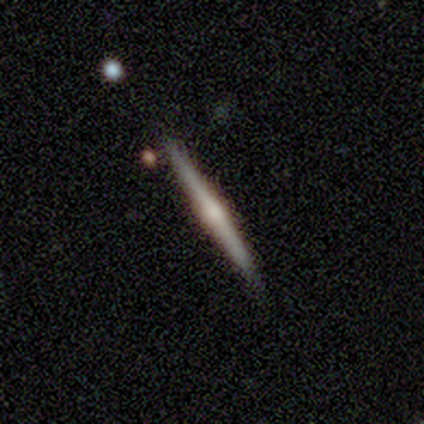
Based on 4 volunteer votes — A featured or disk galaxy (75%) viewed edge-on (100%) with a rounded central bulge (67%). Merging: none (100%).